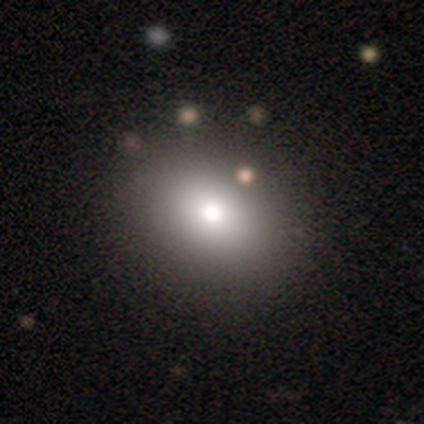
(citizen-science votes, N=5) Overall: smooth (80%). How rounded: in between (100%). Merging: none (100%).